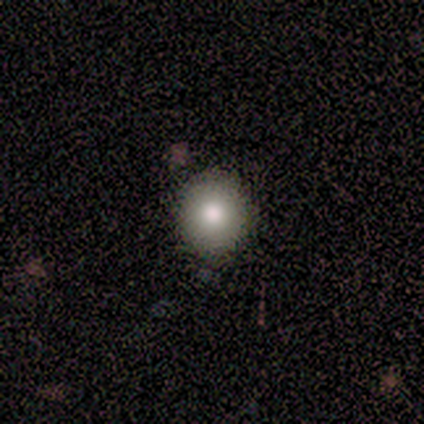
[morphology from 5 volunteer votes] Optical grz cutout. It shows a smooth galaxy with no disk features (100%) that is round (100%). Merging: none (80%).